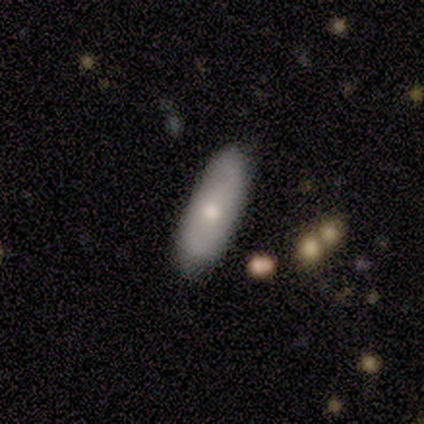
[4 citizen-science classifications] Smooth or featured? 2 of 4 (50%, tied with featured or disk) said smooth. How rounded? 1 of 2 (50%, tied with cigar-shaped) said in between. Merging? 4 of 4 (100%) said none.